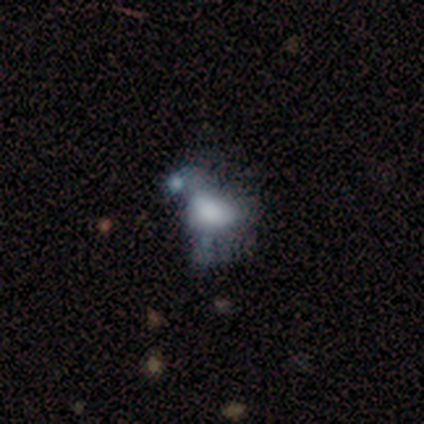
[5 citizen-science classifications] Smooth or featured? 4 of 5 (80%) said smooth. How rounded? 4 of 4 (100%) said in between. Merging? 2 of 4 (50%) said merger.